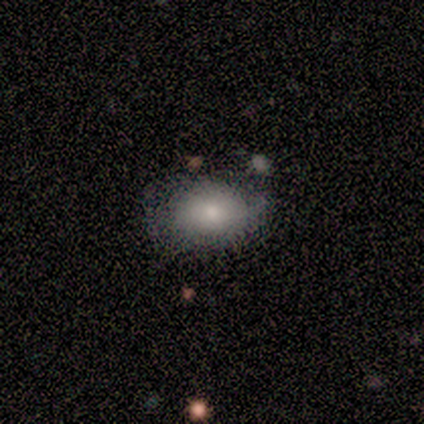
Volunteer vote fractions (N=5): This appears to be a smooth galaxy with no disk features (60%) that is round (67%). Merging: none (50%).